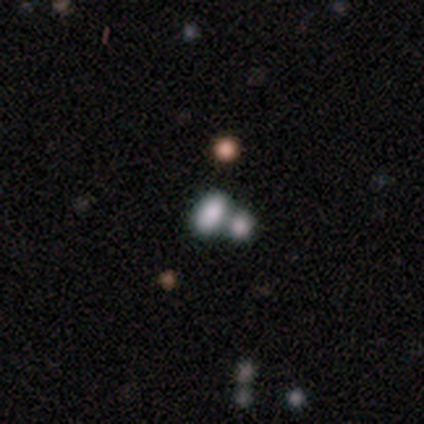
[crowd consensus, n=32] Smooth or featured?
  - smooth: 72% *
  - star or artifact: 19%
  - featured or disk: 9%
How rounded?
  - in between: 96% *
  - round: 4%
  - cigar-shaped: 0%
Merging?
  - merger: 65% *
  - none: 0%
  - minor disturbance: 0%
  - major disturbance: 0%